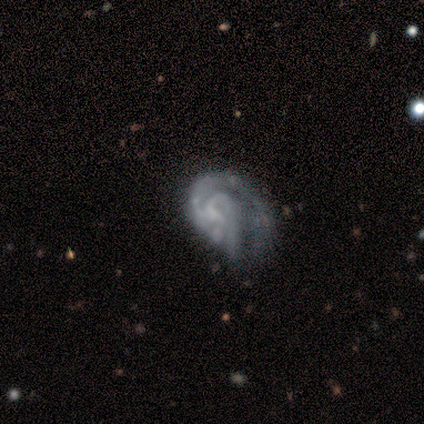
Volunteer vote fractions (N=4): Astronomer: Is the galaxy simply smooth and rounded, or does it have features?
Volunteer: featured or disk — 75%.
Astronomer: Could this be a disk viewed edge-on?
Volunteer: no — 100%.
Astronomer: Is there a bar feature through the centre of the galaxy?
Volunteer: no — 67%.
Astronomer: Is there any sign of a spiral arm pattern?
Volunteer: yes — 100%.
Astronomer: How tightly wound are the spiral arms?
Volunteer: medium — 67%.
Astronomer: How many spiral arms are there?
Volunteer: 2 — 100%.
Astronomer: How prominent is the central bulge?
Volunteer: none — 67%.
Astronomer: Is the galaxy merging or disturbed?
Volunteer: major disturbance — 50%.